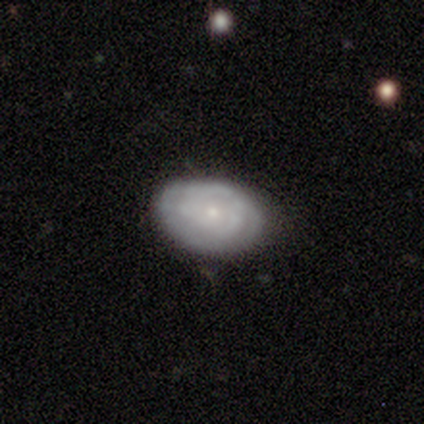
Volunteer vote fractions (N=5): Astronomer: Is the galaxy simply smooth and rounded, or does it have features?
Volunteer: featured or disk — 60% (runner-up: smooth, 40%).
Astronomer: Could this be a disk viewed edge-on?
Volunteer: no — 67%.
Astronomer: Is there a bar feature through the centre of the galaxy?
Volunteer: no — 100%.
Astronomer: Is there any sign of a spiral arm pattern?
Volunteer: yes — 50%, tied with no at 50%.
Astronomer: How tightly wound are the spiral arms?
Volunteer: tight — 100%.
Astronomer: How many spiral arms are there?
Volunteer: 2 — 100%.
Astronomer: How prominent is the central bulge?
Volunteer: small — 100%.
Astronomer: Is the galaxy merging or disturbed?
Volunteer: none — 80%.